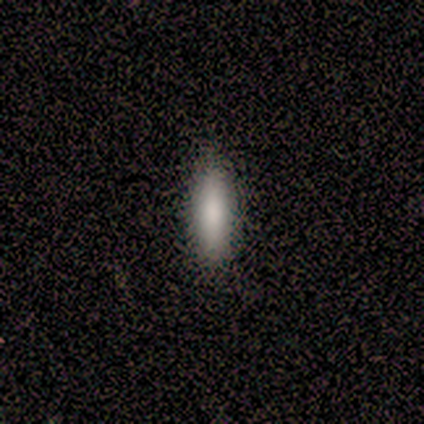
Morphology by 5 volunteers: Volunteers were most divided on "how rounded": cigar-shaped: 80%, in between: 20%, round: 0%. More confident: smooth or featured — smooth (100%); merging — none (100%).